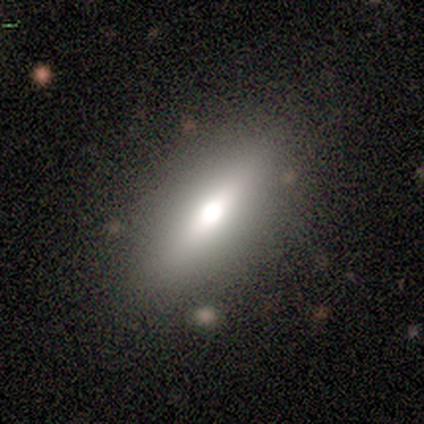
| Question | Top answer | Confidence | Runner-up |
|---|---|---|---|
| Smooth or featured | smooth | 67% | featured or disk (33%) |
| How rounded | in between | 75% | cigar-shaped (25%) |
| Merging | none | 83% | merger (17%) |